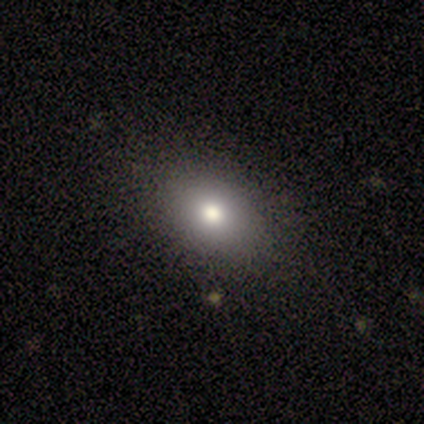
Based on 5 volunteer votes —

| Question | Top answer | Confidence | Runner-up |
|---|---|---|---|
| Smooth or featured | smooth | 100% | — |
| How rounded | in between | 80% | round (20%) |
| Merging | none | 80% | minor disturbance (20%) |